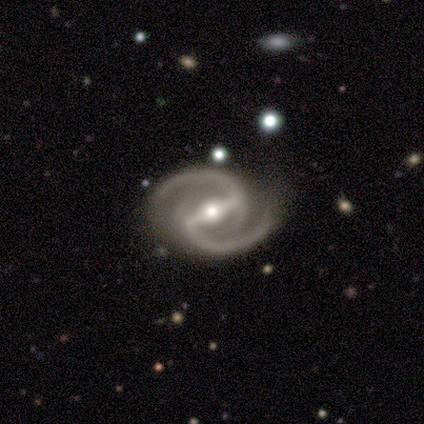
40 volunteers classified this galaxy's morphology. Smooth or featured: featured or disk — 98% (smooth — 2%)
Edge-on disk: no — 97% (yes — 3%)
Bar: strong — 87% (weak — 8%)
Spiral arms: yes — 100%
Spiral winding: medium — 82% (tight — 13%)
Spiral arm count: 2 — 100%
Bulge size: moderate — 63% (small — 29%)
Merging: none — 72% (minor disturbance — 20%)